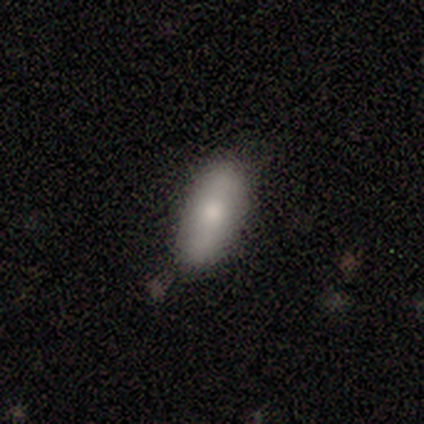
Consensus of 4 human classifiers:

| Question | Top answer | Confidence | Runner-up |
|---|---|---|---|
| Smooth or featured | smooth | 100% | — |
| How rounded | in between | 100% | — |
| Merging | none | 75% | minor disturbance (25%) |